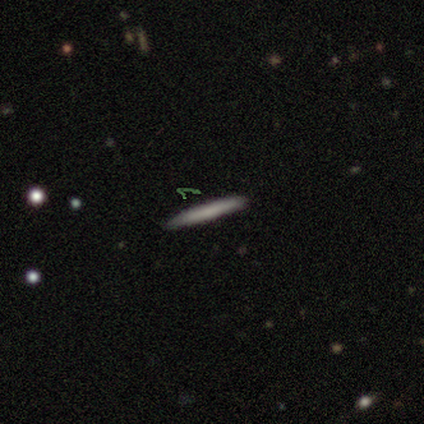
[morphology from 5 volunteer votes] smooth 80%, featured or disk 20%, star or artifact 0%. Down the decision tree: how rounded — cigar-shaped (100%); merging — none (100%).